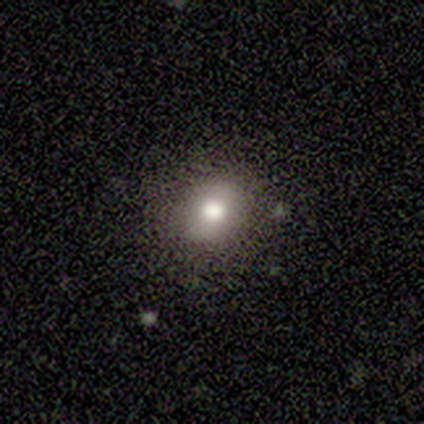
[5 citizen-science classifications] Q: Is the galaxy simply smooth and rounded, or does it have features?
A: smooth — 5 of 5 (100%).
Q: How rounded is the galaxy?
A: round — 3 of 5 (60%).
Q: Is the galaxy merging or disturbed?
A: none — 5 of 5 (100%).